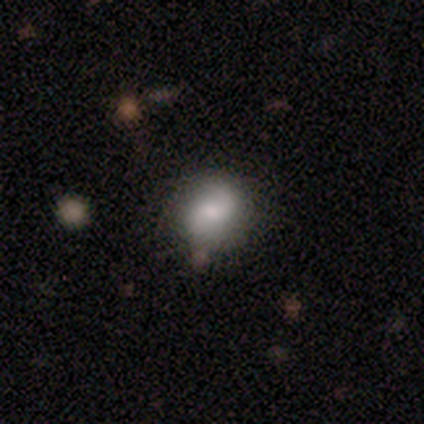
This is possibly a smooth galaxy (49%). How rounded: likely round (72%). Merging: clearly none (82%).